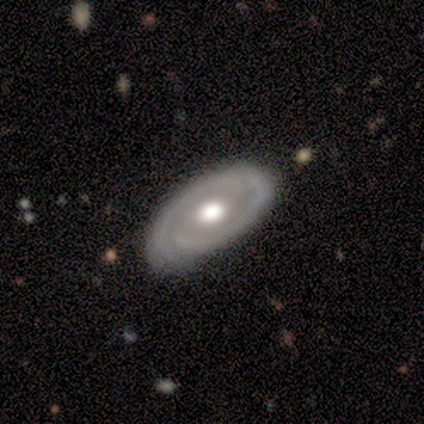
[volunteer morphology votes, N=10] featured or disk 90%, smooth 10%, star or artifact 0%. Down the decision tree: edge-on disk — no (100%); bar — no (100%); spiral arms — yes (100%); spiral arm count — 2 (78%); spiral winding — tight (56%); bulge size — moderate (56%); merging — none (60%).